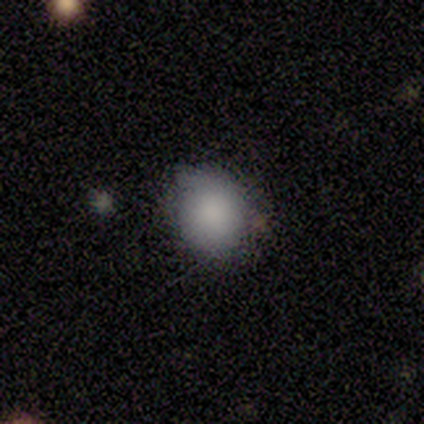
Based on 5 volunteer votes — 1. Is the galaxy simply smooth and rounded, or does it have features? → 100% smooth, 0% featured or disk, 0% star or artifact.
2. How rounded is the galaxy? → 80% round, 20% in between, 0% cigar-shaped.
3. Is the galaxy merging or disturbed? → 80% none, 20% major disturbance, 0% minor disturbance, 0% merger.